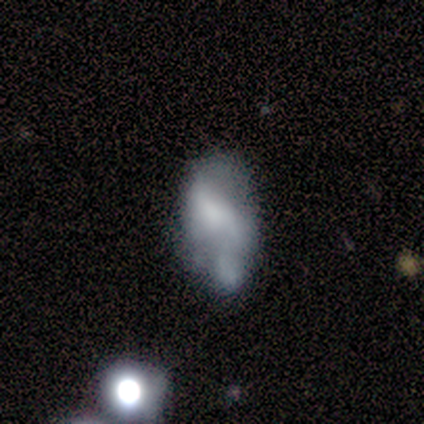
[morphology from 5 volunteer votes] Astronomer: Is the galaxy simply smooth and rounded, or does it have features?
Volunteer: featured or disk — 60% (runner-up: smooth, 40%).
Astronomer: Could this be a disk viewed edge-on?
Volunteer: no — 100%.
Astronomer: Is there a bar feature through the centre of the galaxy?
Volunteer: no — 67%.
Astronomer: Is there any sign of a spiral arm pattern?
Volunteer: no — 100%.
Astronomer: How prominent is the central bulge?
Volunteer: dominant — 33%, tied with moderate and small at 33%.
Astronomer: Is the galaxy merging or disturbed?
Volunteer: minor disturbance — 40% (runner-up: none, 20%).